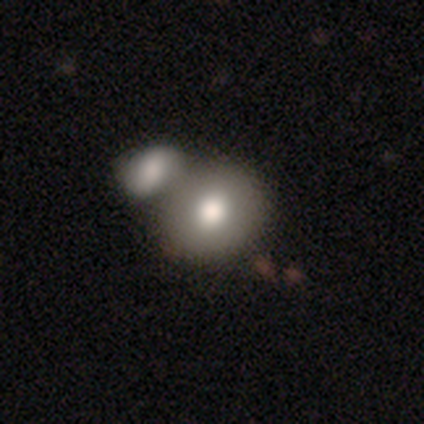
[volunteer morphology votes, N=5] smooth_or_featured: smooth (p=0.60) [alt: featured or disk p=0.20]
how_rounded: round (p=0.67) [alt: in between p=0.33]
merging: merger (p=0.75) [alt: none p=0.25]